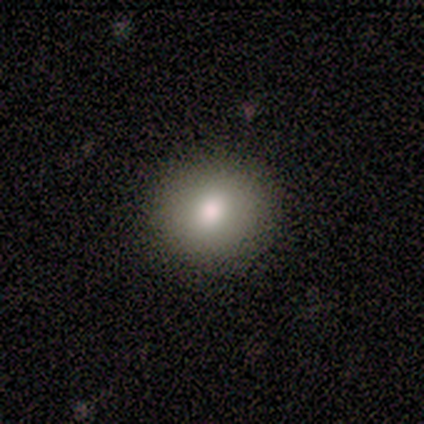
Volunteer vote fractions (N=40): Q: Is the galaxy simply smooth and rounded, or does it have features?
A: smooth — 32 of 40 (80%).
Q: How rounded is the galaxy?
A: round — 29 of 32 (91%).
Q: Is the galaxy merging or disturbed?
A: none — 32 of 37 (86%).